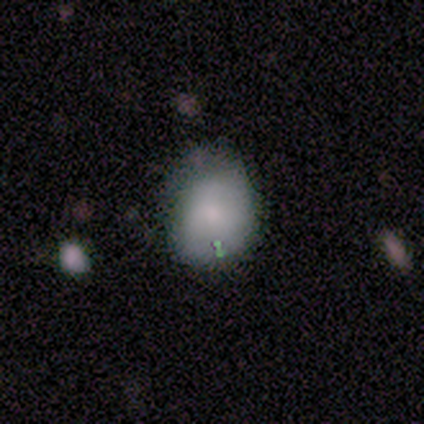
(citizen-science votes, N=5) smooth 80%, featured or disk 20%, star or artifact 0%. Down the decision tree: how rounded — round (100%); merging — none (80%).